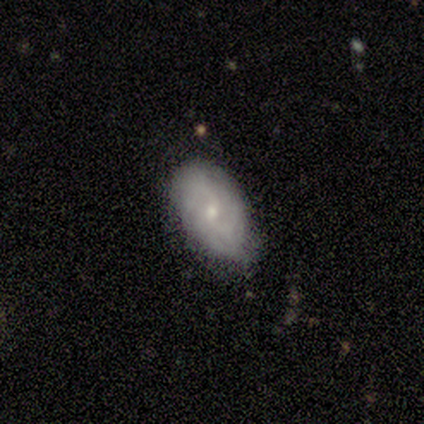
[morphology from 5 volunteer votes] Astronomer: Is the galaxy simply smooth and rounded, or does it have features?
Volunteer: featured or disk — 60% (runner-up: smooth, 40%).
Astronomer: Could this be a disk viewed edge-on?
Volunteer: no — 100%.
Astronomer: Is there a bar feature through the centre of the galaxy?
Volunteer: no — 100%.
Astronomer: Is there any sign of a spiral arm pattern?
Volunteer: yes — 67%.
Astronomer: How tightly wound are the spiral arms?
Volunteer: medium — 50%, tied with loose at 50%.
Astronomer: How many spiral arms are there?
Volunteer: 2 — 100%.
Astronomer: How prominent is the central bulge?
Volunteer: small — 67%.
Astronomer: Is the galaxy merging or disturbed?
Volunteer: none — 60% (runner-up: minor disturbance, 40%).